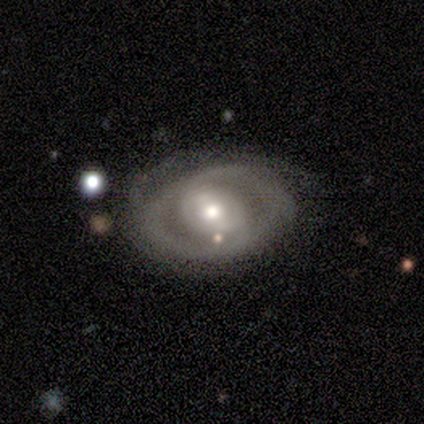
featured or disk 80%, smooth 15%, star or artifact 5%. Down the decision tree: edge-on disk — no (100%); bar — no (47%); spiral arms — yes (50%, tied with no); spiral arm count — 2 (56%); spiral winding — tight (56%); bulge size — moderate (66%); merging — none (45%).